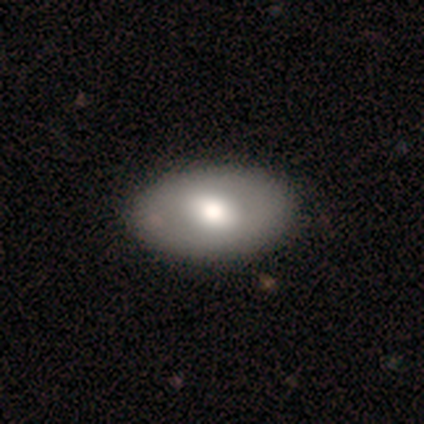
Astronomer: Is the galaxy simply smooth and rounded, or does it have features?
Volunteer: smooth — 40%, tied with featured or disk at 40%.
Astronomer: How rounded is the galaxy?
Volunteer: in between — 100%.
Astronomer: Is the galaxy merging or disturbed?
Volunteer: none — 75%.